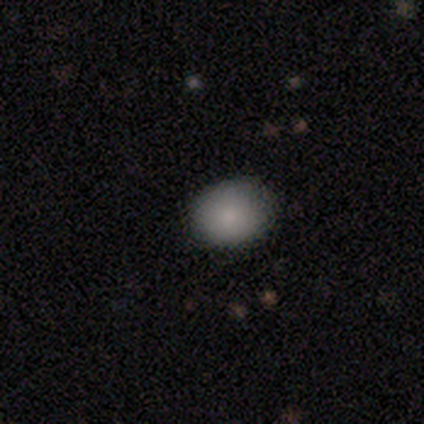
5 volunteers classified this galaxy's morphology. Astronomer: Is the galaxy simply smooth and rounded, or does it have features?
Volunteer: smooth — 60%.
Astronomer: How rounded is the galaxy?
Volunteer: in between — 67%.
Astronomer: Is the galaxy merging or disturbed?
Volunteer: none — 75%.